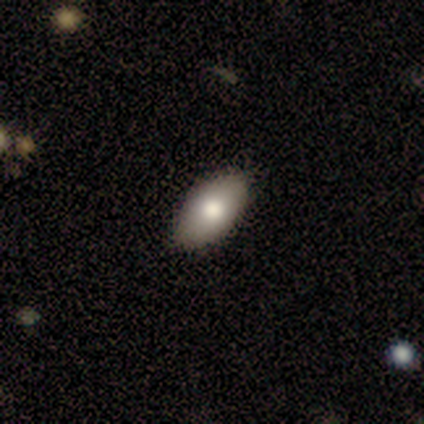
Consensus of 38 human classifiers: This is clearly a smooth galaxy (82%). How rounded: clearly in between (97%). Merging: clearly none (89%).